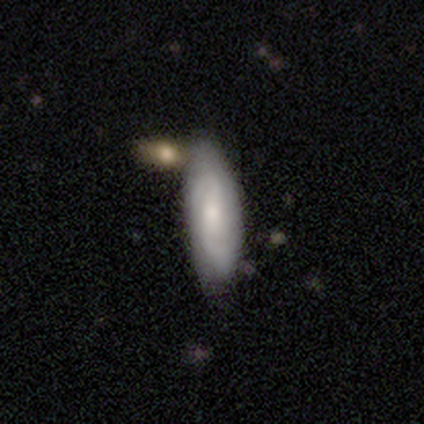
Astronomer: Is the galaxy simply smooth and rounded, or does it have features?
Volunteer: smooth — 50%.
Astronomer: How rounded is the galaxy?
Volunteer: in between — 50%, tied with cigar-shaped at 50%.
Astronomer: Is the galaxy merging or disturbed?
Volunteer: minor disturbance — 67%.